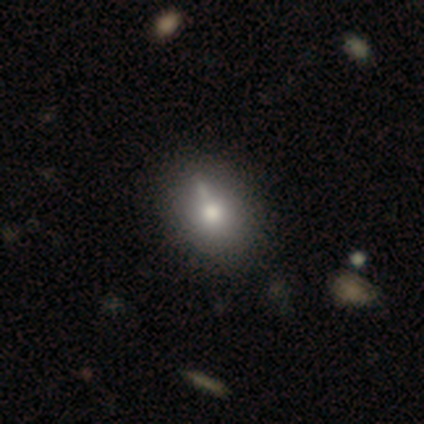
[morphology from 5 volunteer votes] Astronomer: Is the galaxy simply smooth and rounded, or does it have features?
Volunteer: smooth — 60%.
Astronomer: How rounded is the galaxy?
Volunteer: round — 67%.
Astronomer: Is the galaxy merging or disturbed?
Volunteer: none — 50%.